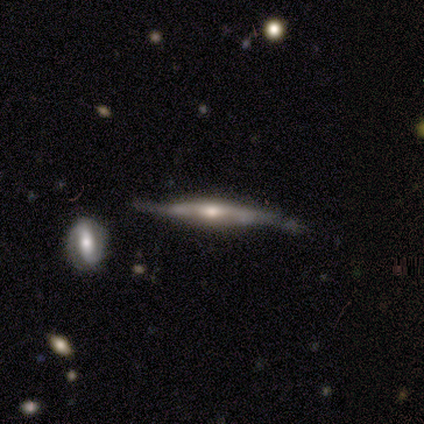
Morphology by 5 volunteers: A featured or disk galaxy (100%) viewed edge-on (100%) with a rounded central bulge (80%). Merging: none (40%, tied with major disturbance).